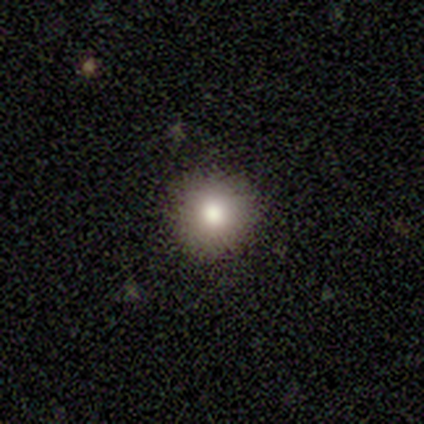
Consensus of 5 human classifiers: A smooth galaxy with no disk features (80%) that is round (100%).

Vote fractions:
- Smooth or featured? smooth: 80% / star or artifact: 20% / featured or disk: 0%
- How rounded? round: 100% / in between: 0% / cigar-shaped: 0%
- Merging? none: 100% / minor disturbance: 0% / major disturbance: 0% / merger: 0%